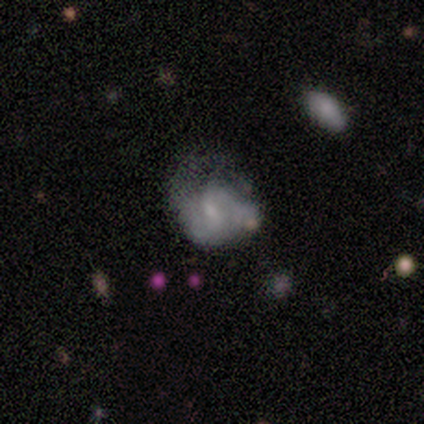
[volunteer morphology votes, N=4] A featured or disk galaxy (75%) with a weak bar (67%), 2 (67%) tight (67%) spiral arms (100%) and a small central bulge (67%). Merging: minor disturbance (50%).